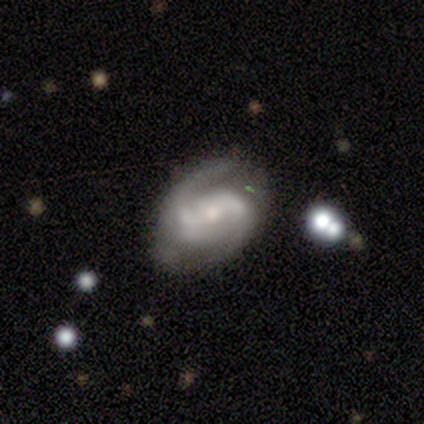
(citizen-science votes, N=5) Smooth or featured? 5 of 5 (100%) said featured or disk. Edge-on disk? 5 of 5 (100%) said no. Bar? 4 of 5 (80%) said weak. Spiral arms? 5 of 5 (100%) said yes. Spiral winding? 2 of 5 (40%, tied with loose) said medium. Spiral arm count? 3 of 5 (60%) said 2. Bulge size? 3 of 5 (60%) said moderate. Merging? 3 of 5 (60%) said none.